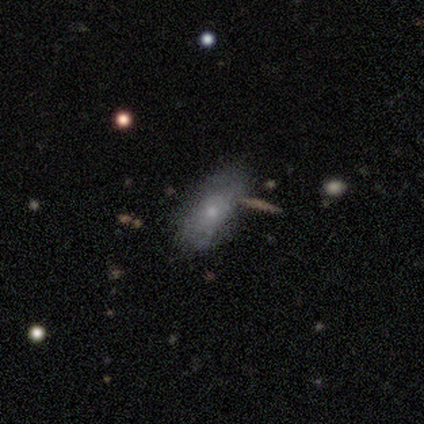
Overall: smooth (64%; featured or disk 31%). How rounded: in between (80%). Merging: none (54%; minor disturbance 24%).